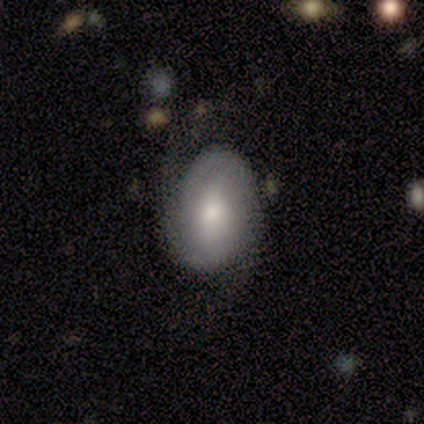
Smooth or featured?
  - featured or disk: 60% *
  - smooth: 40%
  - star or artifact: 0%
Edge-on disk?
  - no: 100% *
  - yes: 0%
Bar?
  - no: 67% *
  - strong: 33%
  - weak: 0%
Spiral arms?
  - yes: 100% *
  - no: 0%
Spiral winding?
  - tight: 67% *
  - medium: 33%
  - loose: 0%
Spiral arm count?
  - 2: 67% *
  - can't tell: 33%
  - 1: 0%
  - 3: 0%
  - 4: 0%
  - more than 4: 0%
Bulge size?
  - moderate: 67% *
  - small: 33%
  - dominant: 0%
  - large: 0%
  - none: 0%
Merging?
  - none: 40% * (tied)
  - major disturbance: 40% * (tied)
  - minor disturbance: 20%
  - merger: 0%